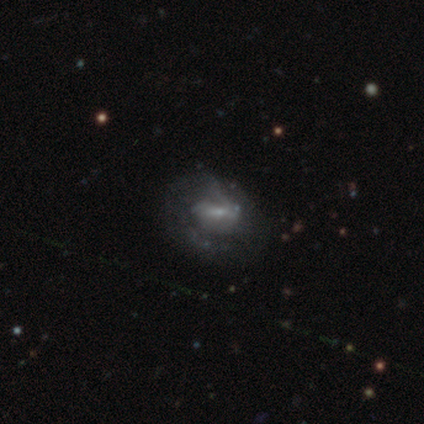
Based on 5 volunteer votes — This is likely a featured or disk galaxy (60%). It is clearly not viewed edge-on (100%). Bar: likely weak (67%). Spiral arm pattern: clearly yes (100%). Spiral arm count: likely 2 (67%). Spiral winding: likely medium (67%). Central bulge: clearly small (100%). Merging: marginally none (40%, tied with major disturbance).